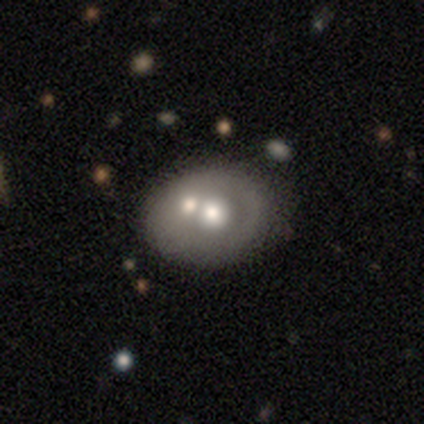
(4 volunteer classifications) A smooth galaxy with no disk features (50%, tied with featured or disk) that is round (50%, tied with in between).

Vote fractions:
- Smooth or featured? smooth: 50% (tied) / featured or disk: 50% (tied) / star or artifact: 0%
- How rounded? round: 50% (tied) / in between: 50% (tied) / cigar-shaped: 0%
- Merging? none: 50% / minor disturbance: 25% / merger: 25% / major disturbance: 0%